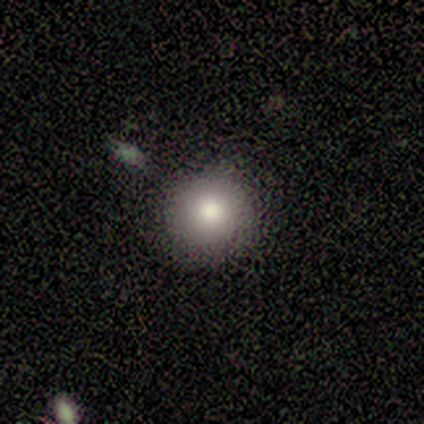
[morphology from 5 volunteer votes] A smooth galaxy with no disk features (60%) that is round (100%). Merging: none (100%).